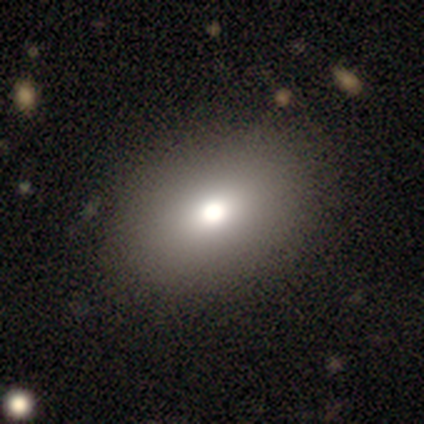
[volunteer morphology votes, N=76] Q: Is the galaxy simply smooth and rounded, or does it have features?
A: smooth — 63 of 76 (83%).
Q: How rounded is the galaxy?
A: in between — 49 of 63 (78%).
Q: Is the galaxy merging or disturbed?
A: none — 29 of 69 (42%).